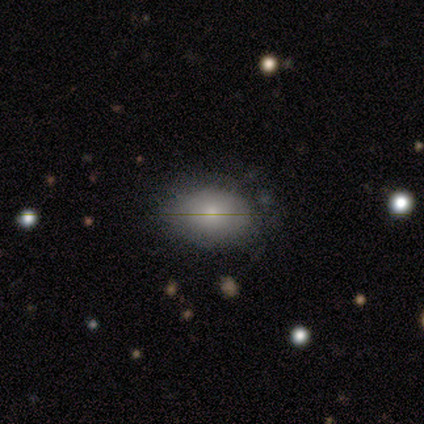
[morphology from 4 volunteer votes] Smooth or featured? smooth (100%)
How rounded? in between (75%)
Merging? none (75%)